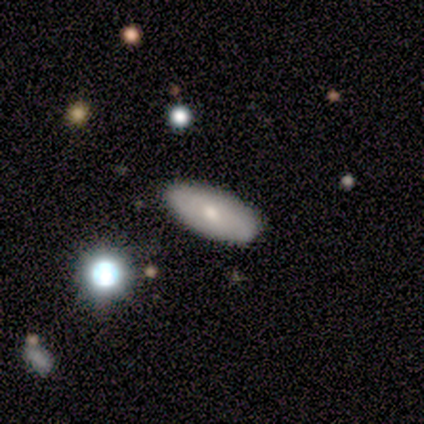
Q: Smooth or featured?
A: smooth (67%); runner-up: featured or disk (33%)
Q: How rounded?
A: in between (88%); runner-up: cigar-shaped (12%)
Q: Merging?
A: none (75%); runner-up: minor disturbance (17%)